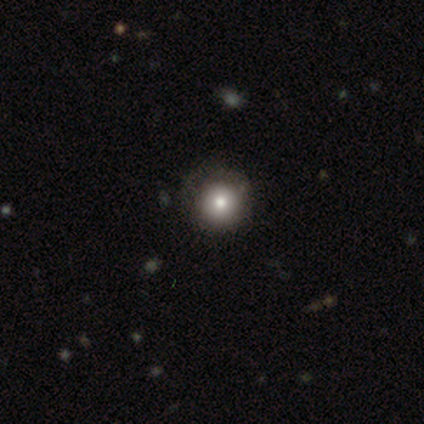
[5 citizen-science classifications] Overall: smooth (80%). How rounded: round (100%). Merging: none (75%).